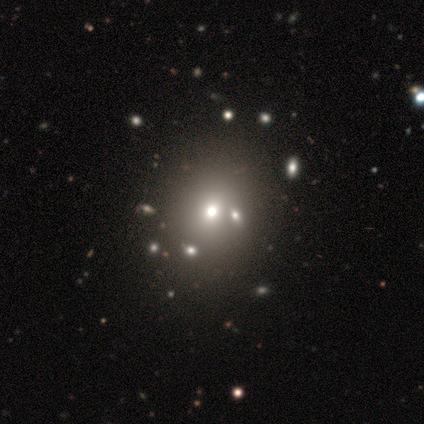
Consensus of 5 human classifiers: This appears to be a smooth galaxy with no disk features (60%) that is round (100%). Merging: none (75%).